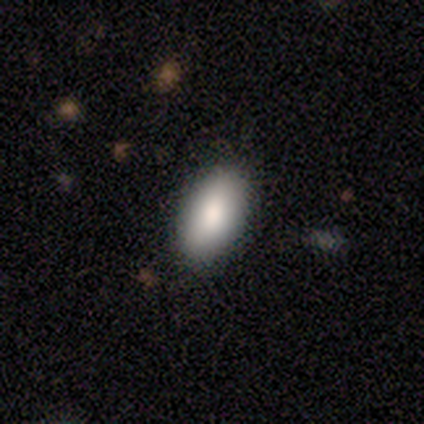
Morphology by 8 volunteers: Overall: smooth (88%). How rounded: in between (100%). Merging: none (86%).